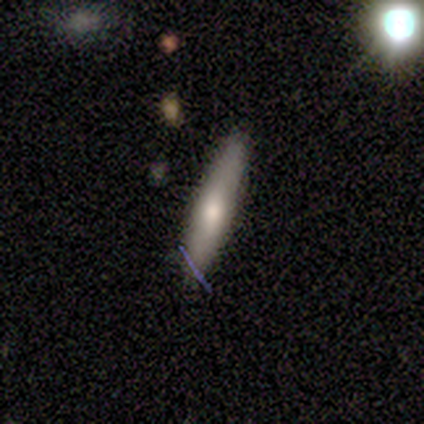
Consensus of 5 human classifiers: A featured or disk galaxy (60%) viewed edge-on (100%) with a rounded central bulge (67%). Merging: none (80%).